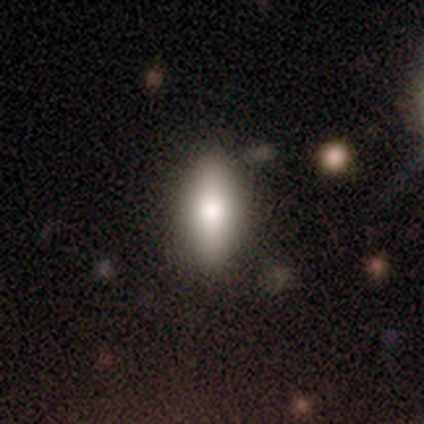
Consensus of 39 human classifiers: Smooth or featured? smooth (92%)
How rounded? in between (72%)
Merging? none (89%)